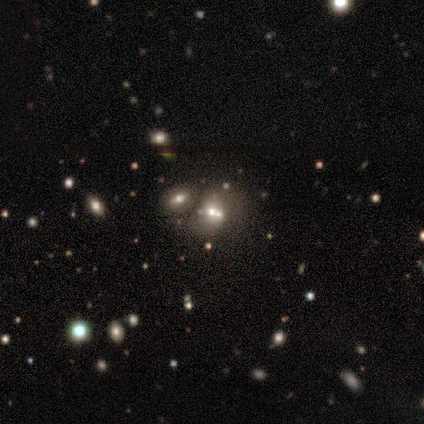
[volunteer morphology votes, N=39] smooth 46%, featured or disk 31%, star or artifact 23%. Down the decision tree: how rounded — round (56%); merging — merger (67%).